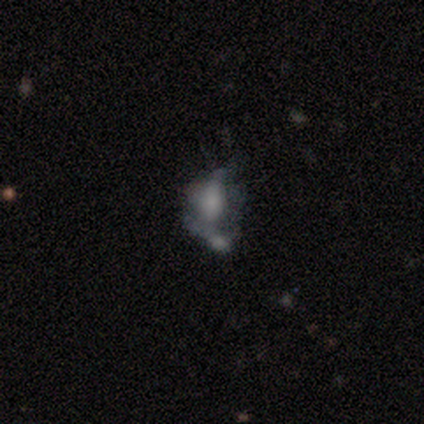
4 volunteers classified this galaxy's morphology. Smooth or featured? featured or disk (75%)
Edge-on disk? no (100%)
Bar? no (100%)
Spiral arms? no (67%)
Bulge size? small (67%)
Merging? major disturbance (67%)